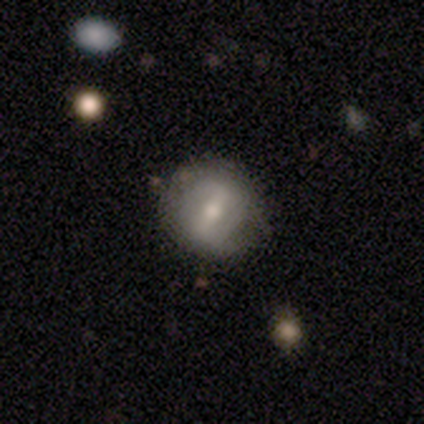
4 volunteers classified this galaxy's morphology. Volunteers were most divided on "smooth or featured" (2-way tie): smooth: 50%, featured or disk: 50%, star or artifact: 0%; "how rounded" (2-way tie): round: 50%, in between: 50%, cigar-shaped: 0%. More confident: merging — none (50%).